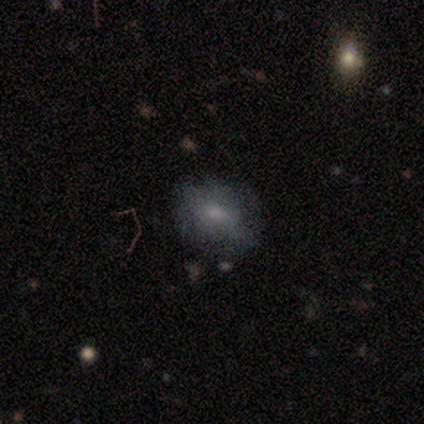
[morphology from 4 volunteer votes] Smooth or featured?
  - smooth: 100% *
  - featured or disk: 0%
  - star or artifact: 0%
How rounded?
  - round: 50% * (tied)
  - in between: 50% * (tied)
  - cigar-shaped: 0%
Merging?
  - none: 100% *
  - minor disturbance: 0%
  - major disturbance: 0%
  - merger: 0%